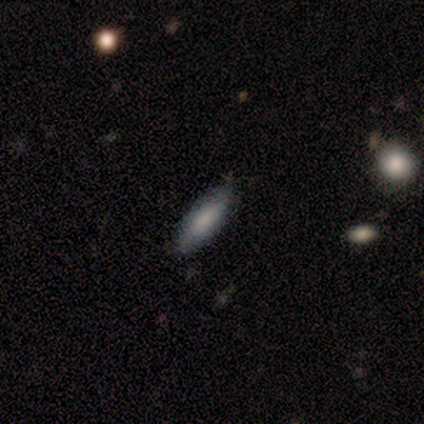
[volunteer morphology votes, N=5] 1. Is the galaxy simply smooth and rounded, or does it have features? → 100% smooth, 0% featured or disk, 0% star or artifact.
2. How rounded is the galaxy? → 80% in between, 20% cigar-shaped, 0% round.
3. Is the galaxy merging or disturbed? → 80% none, 20% minor disturbance, 0% major disturbance, 0% merger.